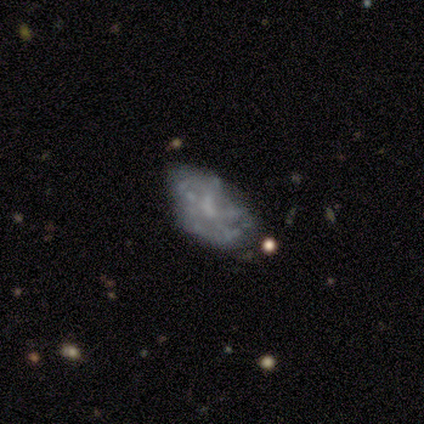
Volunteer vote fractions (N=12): Smooth or featured? featured or disk (92%)
Edge-on disk? no (100%)
Bar? no (82%)
Spiral arms? no (82%)
Bulge size? none (64%)
Merging? none (36%, tied with major disturbance)